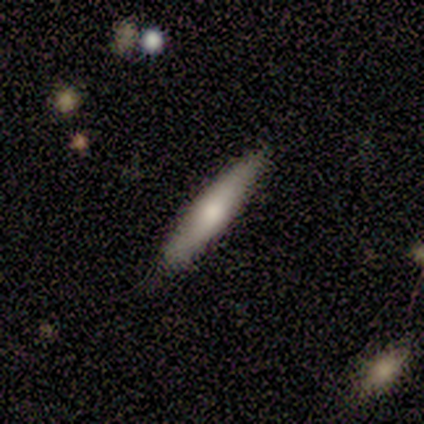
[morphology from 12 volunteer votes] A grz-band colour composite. It shows a smooth galaxy with no disk features (83%) that is cigar-shaped (100%). Merging: none (83%).